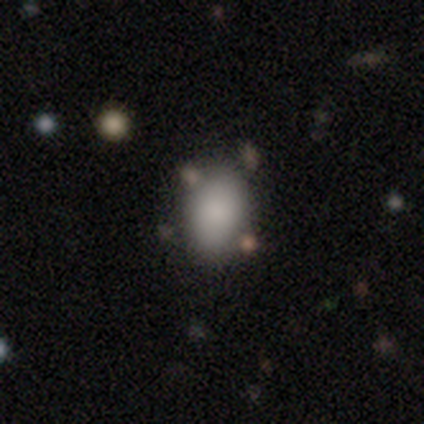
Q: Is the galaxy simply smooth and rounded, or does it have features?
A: smooth — 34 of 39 (87%).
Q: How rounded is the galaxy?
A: in between — 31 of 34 (91%).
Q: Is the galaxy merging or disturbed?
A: none — 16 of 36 (44%).